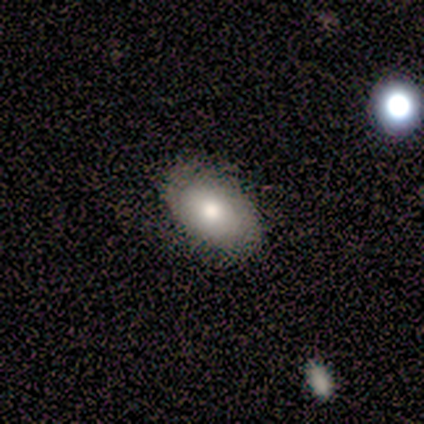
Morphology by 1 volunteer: type=featured or disk (100%); edge-on=no (100%); bar=no (100%); spiral arms=no (100%); bulge=moderate (100%); merging=none (100%).